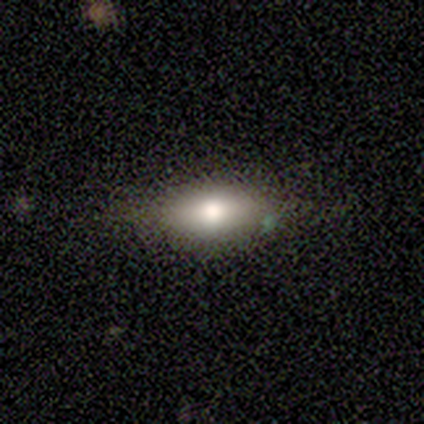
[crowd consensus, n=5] A smooth galaxy with no disk features (100%) that is in between round and cigar-shaped (80%). Merging: none (100%).